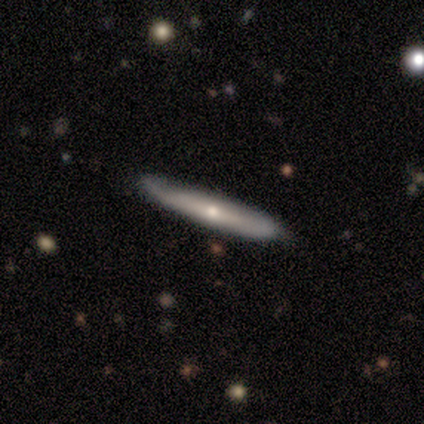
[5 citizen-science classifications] smooth_or_featured: smooth (p=0.60) [alt: star or artifact p=0.40]
how_rounded: cigar-shaped (p=1.00)
merging: none (p=1.00)